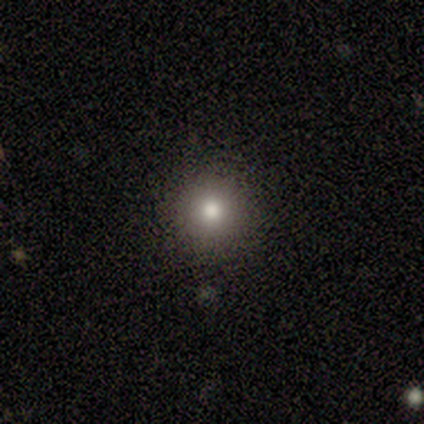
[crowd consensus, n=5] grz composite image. It shows a smooth galaxy with no disk features (100%) that is round (100%). Merging: none (100%).